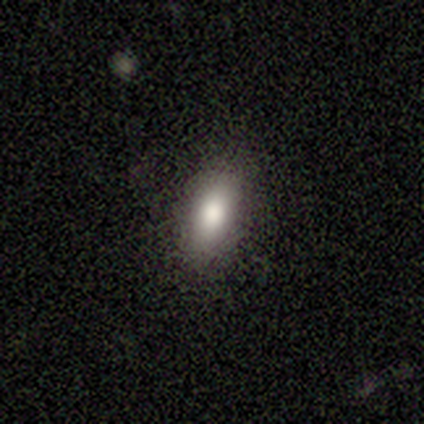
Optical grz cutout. It shows a smooth galaxy with no disk features (100%) that is in between round and cigar-shaped (80%). Merging: none (100%).